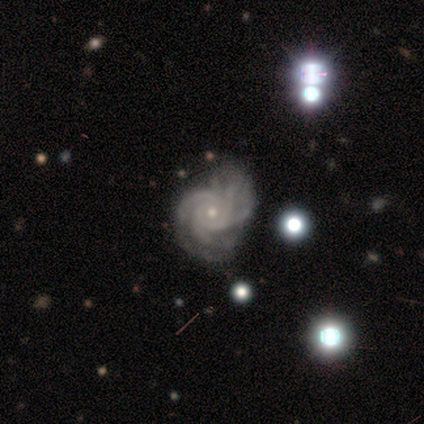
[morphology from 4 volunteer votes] smooth_or_featured: featured or disk (p=1.00)
disk_edge_on: no (p=1.00)
bar: no (p=1.00)
has_spiral_arms: yes (p=1.00)
spiral_winding: tight (p=0.50) [tied with: medium p=0.50]
spiral_arm_count: 3 (p=0.25) [tied with: 4 p=0.25, more than 4 p=0.25, can't tell p=0.25]
bulge_size: small (p=1.00)
merging: none (p=1.00)